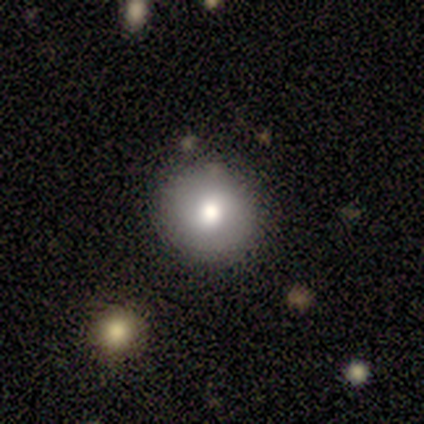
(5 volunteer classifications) Overall: smooth (100%). How rounded: round (100%). Merging: none (80%).